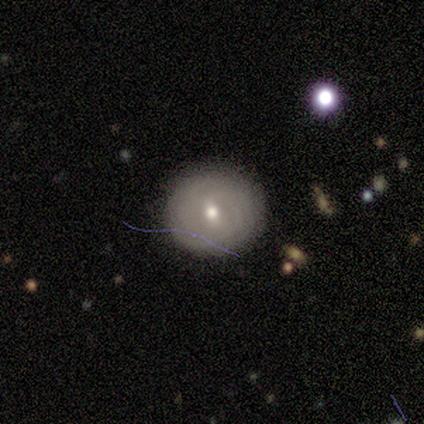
Overall: featured or disk (76%). Edge-on disk: no (100%). Bar: weak (62%; no 23%). Spiral arms: yes (77%). Spiral arm count: can't tell (70%). Spiral winding: tight (90%). Bulge size: moderate (54%; small 46%). Merging: none (100%).